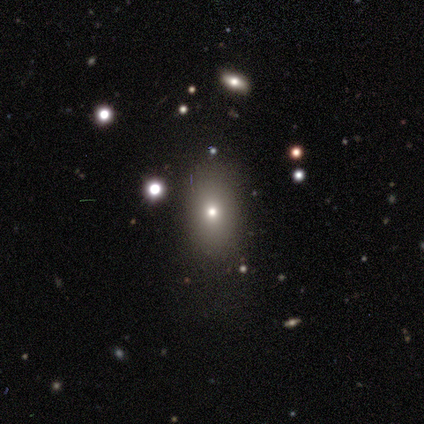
Volunteers were most divided on "how rounded": in between: 80%, round: 20%, cigar-shaped: 0%. More confident: smooth or featured — smooth (100%); merging — none (100%).